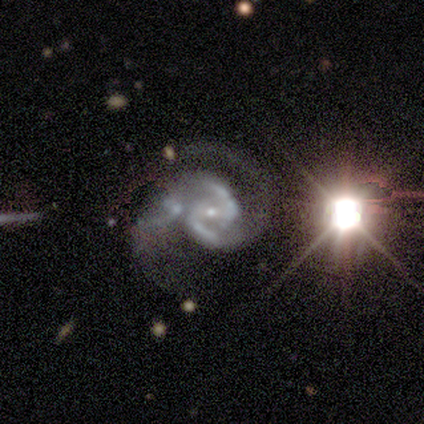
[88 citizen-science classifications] Smooth or featured? featured or disk (88%)
Edge-on disk? no (100%)
Bar? weak (53%)
Spiral arms? yes (99%)
Spiral winding? medium (64%)
Spiral arm count? 2 (93%)
Bulge size? small (79%)
Merging? none (49%)